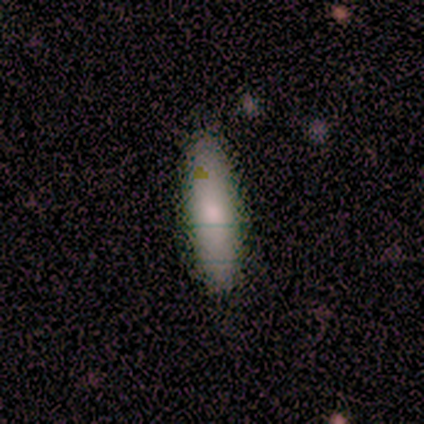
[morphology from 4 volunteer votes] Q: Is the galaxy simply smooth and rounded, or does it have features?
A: smooth — 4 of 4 (100%).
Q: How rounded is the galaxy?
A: cigar-shaped — 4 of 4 (100%).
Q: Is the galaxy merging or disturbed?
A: none — 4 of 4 (100%).